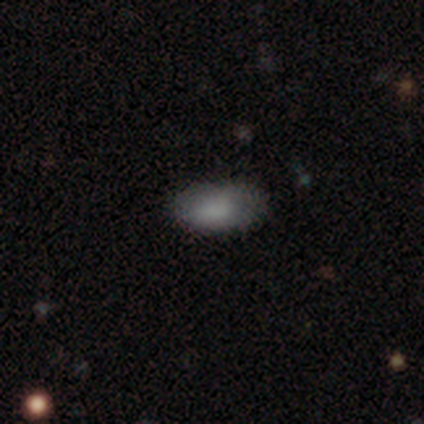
smooth 50% (tied), star or artifact 50% (tied), featured or disk 0%. Down the decision tree: how rounded — in between (100%); merging — minor disturbance (100%).